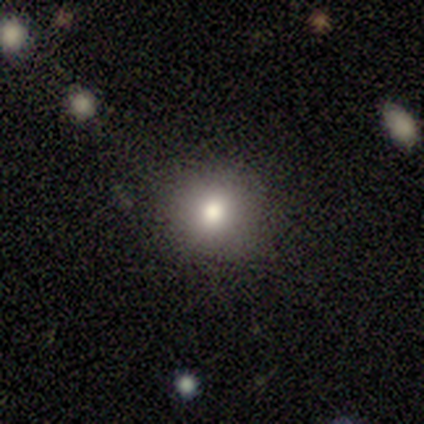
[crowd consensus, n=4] Morphology: type=smooth (50%, tied with featured or disk); roundness=round (100%); merging=none (100%).